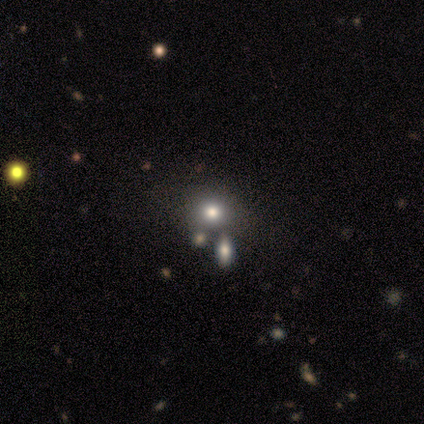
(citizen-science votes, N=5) Smooth or featured: smooth — 60% (featured or disk — 20%)
How rounded: round — 100%
Merging: none — 100%